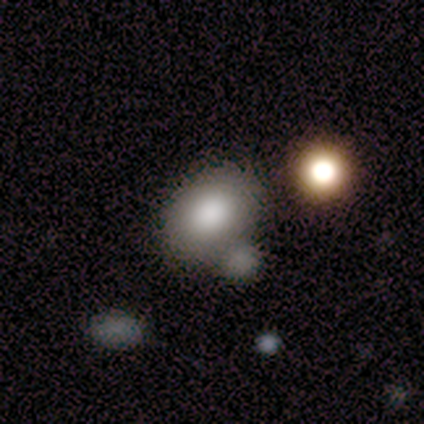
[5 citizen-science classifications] smooth 80%, star or artifact 20%, featured or disk 0%. Down the decision tree: how rounded — in between (100%); merging — merger (50%).